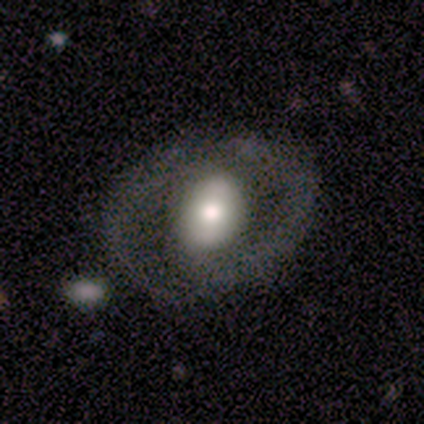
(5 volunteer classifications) Q: Smooth or featured?
A: smooth (60%); runner-up: featured or disk (40%)
Q: How rounded?
A: round (67%); runner-up: in between (33%)
Q: Merging?
A: none (100%)